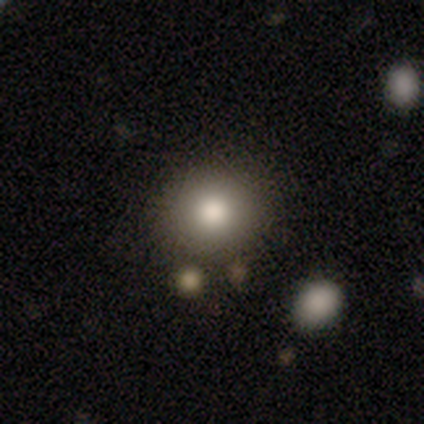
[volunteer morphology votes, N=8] smooth-or-featured: smooth: 50% | featured or disk: 25% | star or artifact: 25%
  how-rounded: round: 50% (tied) | in between: 50% (tied) | cigar-shaped: 0%
  merging: none: 50% | minor disturbance: 17% | major disturbance: 17% | merger: 17%